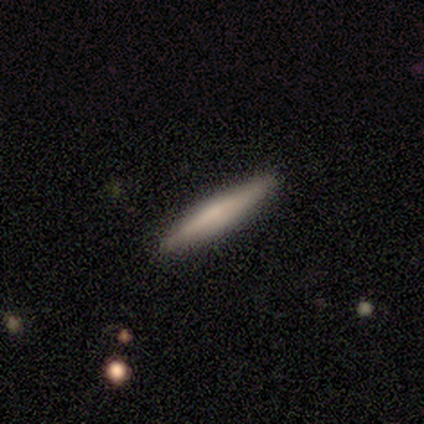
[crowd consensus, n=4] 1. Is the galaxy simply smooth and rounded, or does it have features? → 75% smooth, 25% star or artifact, 0% featured or disk.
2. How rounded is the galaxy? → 100% cigar-shaped, 0% round, 0% in between.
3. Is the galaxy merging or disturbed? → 100% none, 0% minor disturbance, 0% major disturbance, 0% merger.